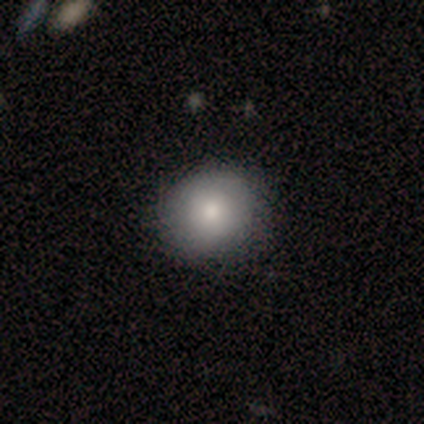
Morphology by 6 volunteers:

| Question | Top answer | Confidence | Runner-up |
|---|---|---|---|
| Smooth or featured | smooth | 67% | featured or disk (33%) |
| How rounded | round | 75% | in between (25%) |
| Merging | none | 100% | — |